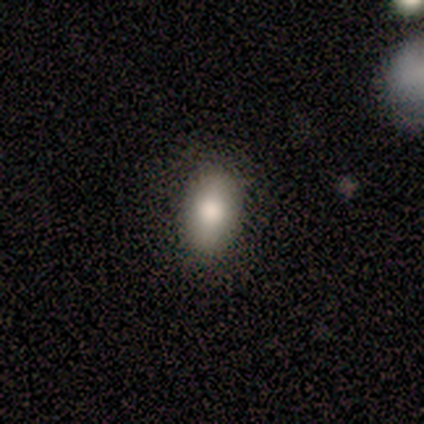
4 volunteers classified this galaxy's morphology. Q: Smooth or featured?
A: smooth (75%); runner-up: star or artifact (25%)
Q: How rounded?
A: in between (67%); runner-up: round (33%)
Q: Merging?
A: none (100%)